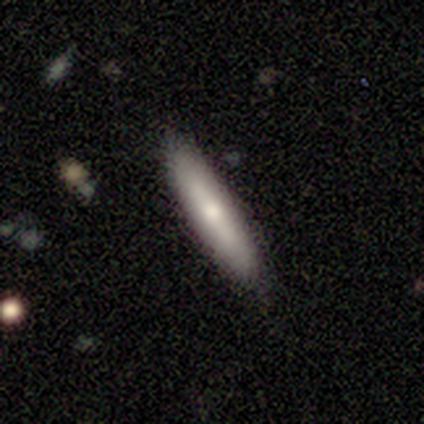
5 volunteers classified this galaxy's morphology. Q: Smooth or featured?
A: smooth (80%); runner-up: featured or disk (20%)
Q: How rounded?
A: cigar-shaped (75%); runner-up: in between (25%)
Q: Merging?
A: none (80%); runner-up: minor disturbance (20%)